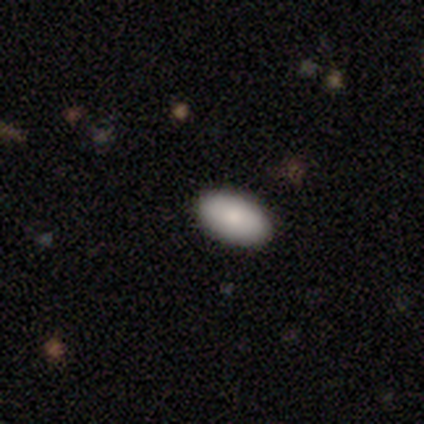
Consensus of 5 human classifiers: Smooth or featured: smooth — 80% (star or artifact — 20%)
How rounded: in between — 100%
Merging: none — 100%